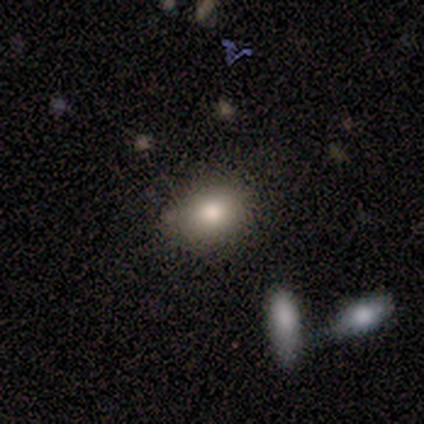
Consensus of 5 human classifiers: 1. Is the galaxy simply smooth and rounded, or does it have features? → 40% smooth (tied), 40% star or artifact (tied), 20% featured or disk.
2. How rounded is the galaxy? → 100% in between, 0% round, 0% cigar-shaped.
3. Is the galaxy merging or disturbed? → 100% none, 0% minor disturbance, 0% major disturbance, 0% merger.